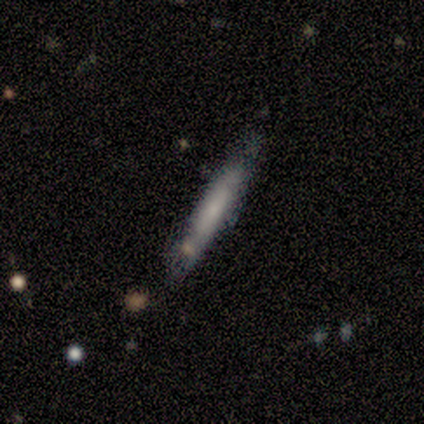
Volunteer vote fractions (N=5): smooth-or-featured: featured or disk: 60% | smooth: 40% | star or artifact: 0%
  disk-edge-on: yes: 100% | no: 0%
    edge-on-bulge: boxy: 33% (tied) | none: 33% (tied) | rounded: 33% (tied)
  merging: none: 80% | minor disturbance: 20% | major disturbance: 0% | merger: 0%